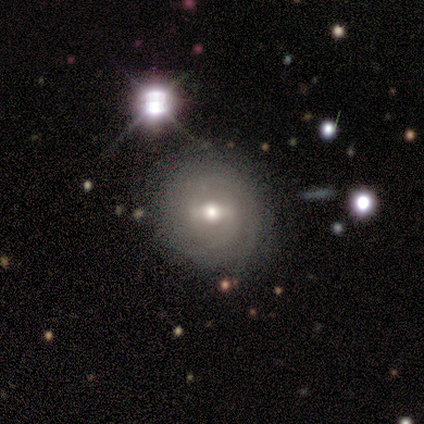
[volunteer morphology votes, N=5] This is clearly a featured or disk galaxy (80%). It is likely not viewed edge-on (75%). Bar: likely weak (67%). Spiral arm pattern: likely yes (67%). Spiral arm count: clearly can't tell (100%). Spiral winding: clearly tight (100%). Central bulge: likely moderate (67%). Merging: clearly none (100%).